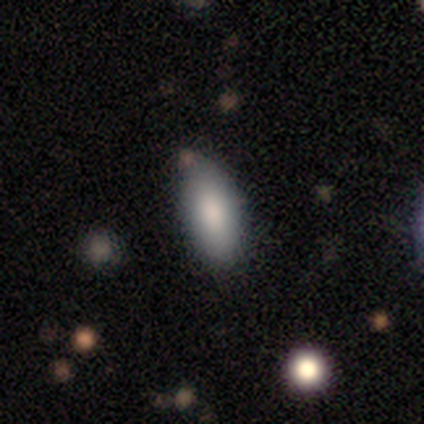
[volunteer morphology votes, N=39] This appears to be a smooth galaxy with no disk features (90%) that is in between round and cigar-shaped (86%). Merging: none (74%).